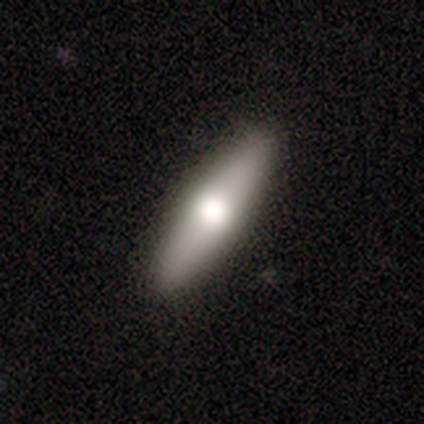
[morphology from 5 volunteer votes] This is likely a smooth galaxy (60%). How rounded: likely cigar-shaped (67%). Merging: likely none (60%).